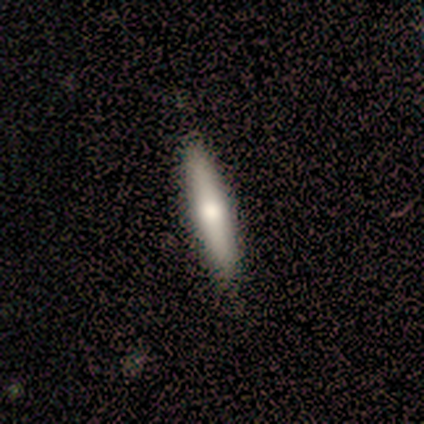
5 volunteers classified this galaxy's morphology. type=smooth (60%); roundness=cigar-shaped (100%); merging=none (80%).